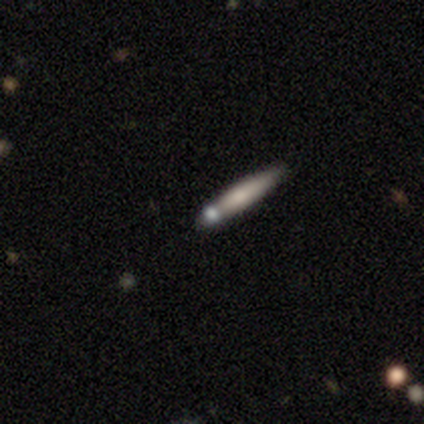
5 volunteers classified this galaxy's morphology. A smooth galaxy with no disk features (60%) that is cigar-shaped (67%).

Vote fractions:
- Smooth or featured? smooth: 60% / featured or disk: 40% / star or artifact: 0%
- How rounded? cigar-shaped: 67% / round: 33% / in between: 0%
- Merging? none: 80% / merger: 20% / minor disturbance: 0% / major disturbance: 0%